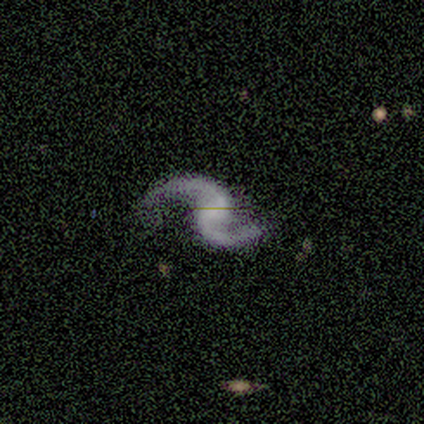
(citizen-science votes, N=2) Smooth or featured? featured or disk (100%)
Edge-on disk? no (100%)
Bar? weak (50%, tied with no)
Spiral arms? yes (100%)
Spiral winding? medium (50%, tied with loose)
Spiral arm count? 2 (100%)
Bulge size? small (50%, tied with none)
Merging? none (100%)